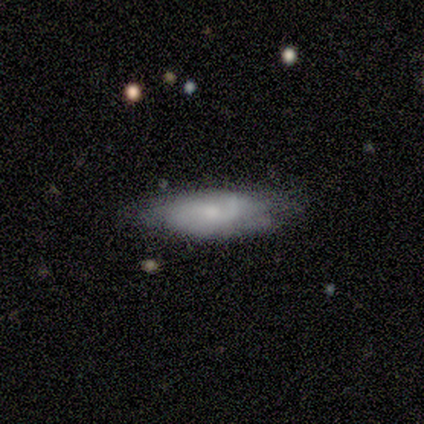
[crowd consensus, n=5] Smooth or featured? 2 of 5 (40%, tied with featured or disk) said smooth. How rounded? 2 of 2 (100%) said cigar-shaped. Merging? 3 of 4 (75%) said none.